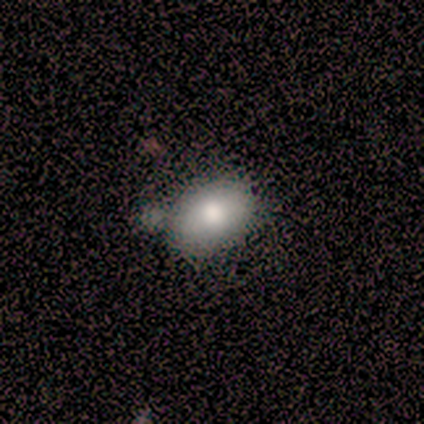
A smooth galaxy with no disk features (100%) that is in between round and cigar-shaped (100%).

Vote fractions:
- Smooth or featured? smooth: 100% / featured or disk: 0% / star or artifact: 0%
- How rounded? in between: 100% / round: 0% / cigar-shaped: 0%
- Merging? none: 40% (tied) / minor disturbance: 40% (tied) / merger: 20% / major disturbance: 0%